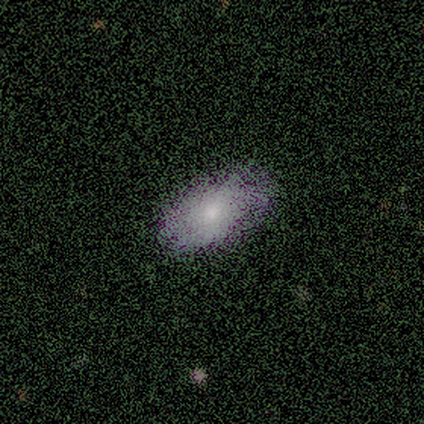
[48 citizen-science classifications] Smooth or featured? smooth (62%)
How rounded? in between (100%)
Merging? none (82%)